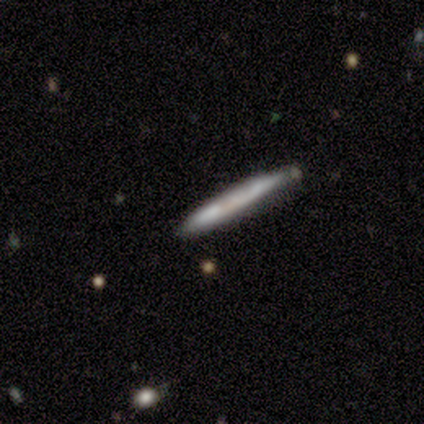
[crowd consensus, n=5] Smooth or featured? smooth (60%)
How rounded? cigar-shaped (100%)
Merging? none (100%)